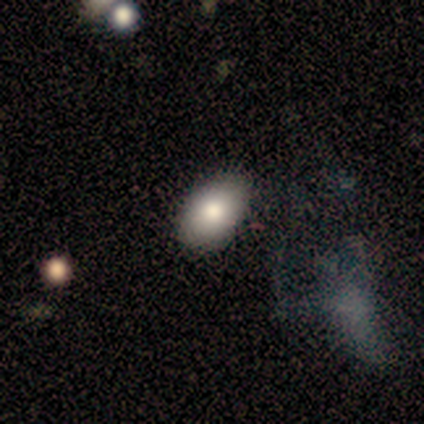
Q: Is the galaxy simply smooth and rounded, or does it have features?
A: smooth — 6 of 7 (86%).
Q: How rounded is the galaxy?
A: in between — 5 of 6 (83%).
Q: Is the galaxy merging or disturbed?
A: none — 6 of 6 (100%).